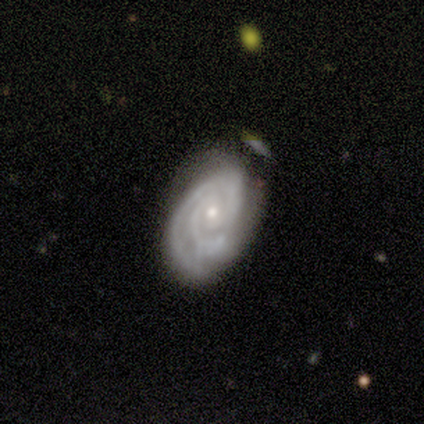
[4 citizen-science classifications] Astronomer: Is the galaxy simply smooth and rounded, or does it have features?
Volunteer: featured or disk — 75%.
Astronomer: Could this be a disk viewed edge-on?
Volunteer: no — 100%.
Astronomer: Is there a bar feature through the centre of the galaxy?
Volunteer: no — 100%.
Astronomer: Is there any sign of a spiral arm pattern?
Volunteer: yes — 100%.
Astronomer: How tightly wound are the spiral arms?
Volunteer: tight — 67%.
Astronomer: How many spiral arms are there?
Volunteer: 2 — 67%.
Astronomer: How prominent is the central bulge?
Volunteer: small — 100%.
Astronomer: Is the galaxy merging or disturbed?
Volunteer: minor disturbance — 67%.